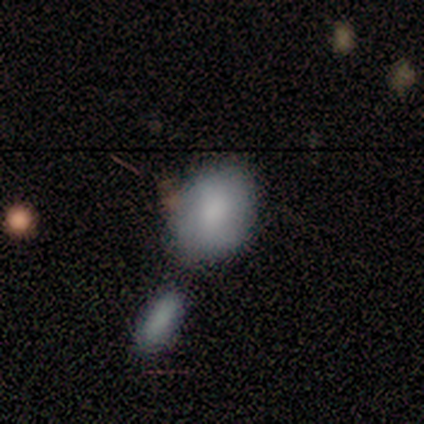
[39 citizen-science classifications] Smooth or featured?
  - smooth: 82% *
  - featured or disk: 18%
  - star or artifact: 0%
How rounded?
  - in between: 84% *
  - round: 16%
  - cigar-shaped: 0%
Merging?
  - none: 54% *
  - minor disturbance: 21%
  - merger: 18%
  - major disturbance: 8%